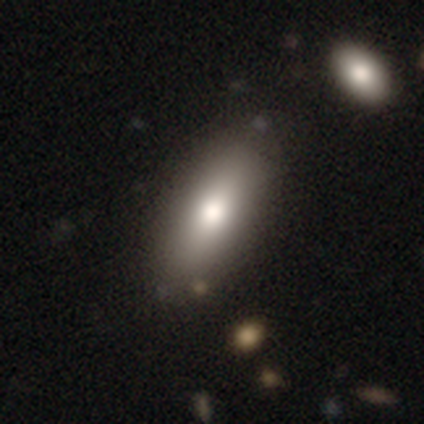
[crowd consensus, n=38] Smooth or featured? 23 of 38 (61%) said smooth. How rounded? 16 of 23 (70%) said in between. Merging? 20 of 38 (53%) said none.